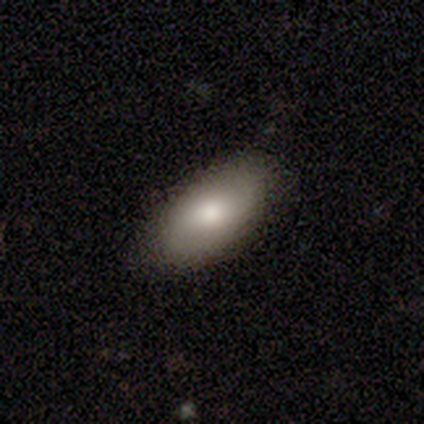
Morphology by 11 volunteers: smooth_or_featured: smooth (p=0.73) [alt: featured or disk p=0.27]
how_rounded: in between (p=1.00)
merging: none (p=0.73) [alt: minor disturbance p=0.27]